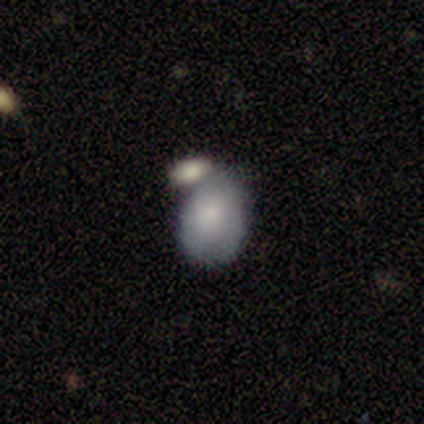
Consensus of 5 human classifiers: Q: Smooth or featured?
A: smooth (80%); runner-up: star or artifact (20%)
Q: How rounded?
A: in between (75%); runner-up: round (25%)
Q: Merging?
A: none (50%); tied with: merger (50%)